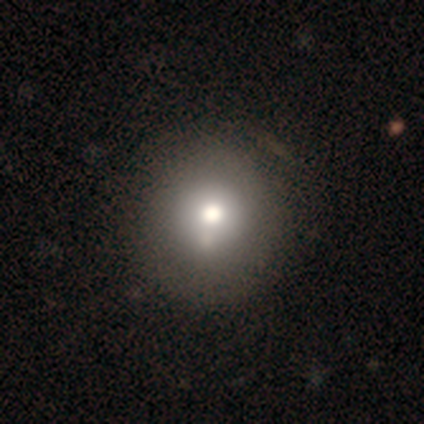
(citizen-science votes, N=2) smooth-or-featured: smooth: 50% (tied) | featured or disk: 50% (tied) | star or artifact: 0%
  how-rounded: round: 100% | in between: 0% | cigar-shaped: 0%
  merging: none: 100% | minor disturbance: 0% | major disturbance: 0% | merger: 0%